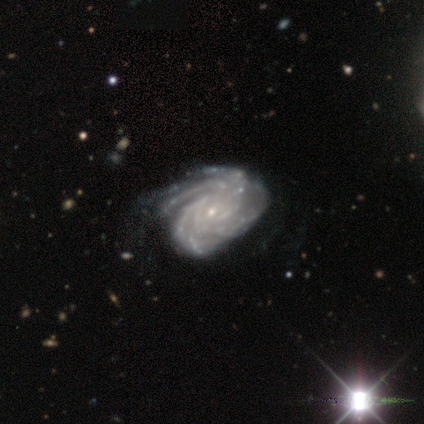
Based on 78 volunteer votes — Smooth or featured: featured or disk — 95% (smooth — 4%)
Edge-on disk: no — 99% (yes — 1%)
Bar: no — 74% (weak — 21%)
Spiral arms: yes — 100%
Spiral winding: tight — 74% (medium — 23%)
Spiral arm count: more than 4 — 37% (4 — 33%)
Bulge size: small — 93% (moderate — 4%)
Merging: none — 27% (minor disturbance — 21%)